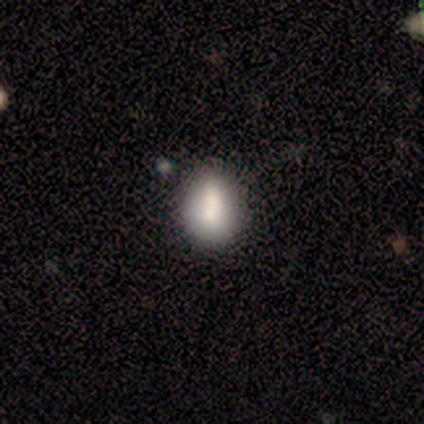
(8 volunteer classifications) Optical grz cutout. It shows a smooth galaxy with no disk features (88%) that is in between round and cigar-shaped (86%). Merging: none (62%).